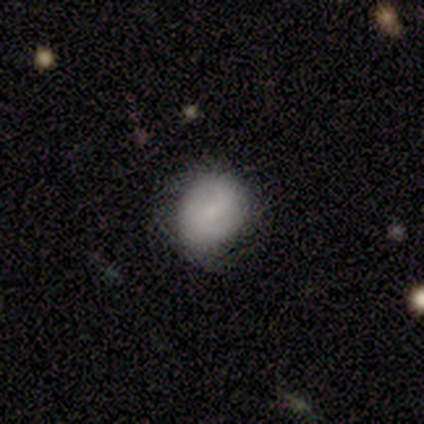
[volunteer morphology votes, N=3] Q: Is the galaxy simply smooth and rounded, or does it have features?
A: smooth — 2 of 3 (67%).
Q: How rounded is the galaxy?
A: round — 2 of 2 (100%).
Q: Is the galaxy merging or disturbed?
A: none — 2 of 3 (67%).